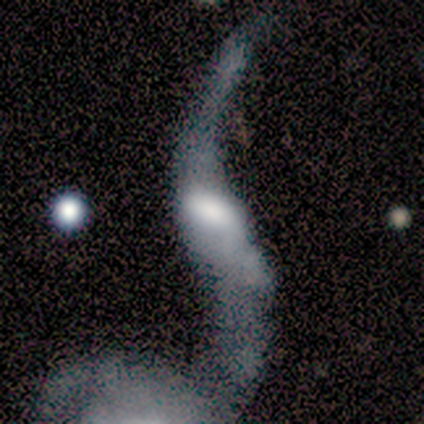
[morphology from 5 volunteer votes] smooth-or-featured: featured or disk: 60% | smooth: 20% | star or artifact: 20%
  disk-edge-on: no: 100% | yes: 0%
    bar: strong: 33% (tied) | weak: 33% (tied) | no: 33% (tied)
    has-spiral-arms: yes: 100% | no: 0%
      spiral-winding: loose: 100% | tight: 0% | medium: 0%
      spiral-arm-count: 2: 67% | 1: 33% | 3: 0% | 4: 0% | more than 4: 0% | can't tell: 0%
    bulge-size: large: 67% | moderate: 33% | dominant: 0% | small: 0% | none: 0%
  merging: major disturbance: 50% | minor disturbance: 25% | merger: 25% | none: 0%